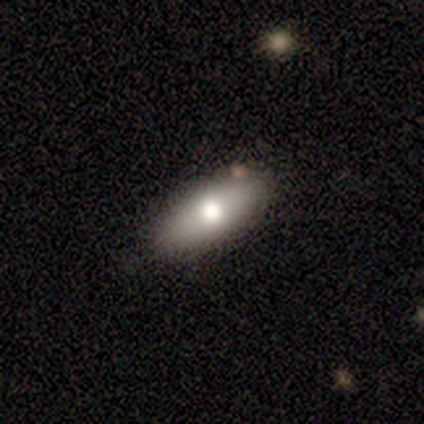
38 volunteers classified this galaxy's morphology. type=smooth (66%); roundness=in between (80%); merging=none (88%).